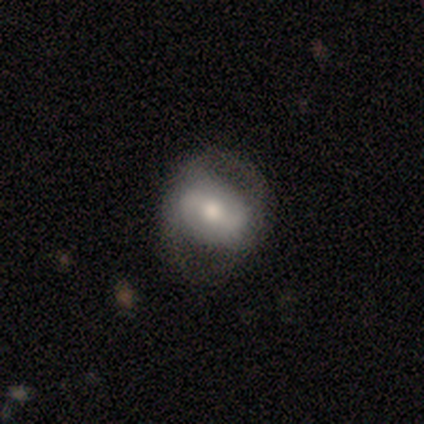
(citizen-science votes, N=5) smooth-or-featured: smooth: 80% | featured or disk: 20% | star or artifact: 0%
  how-rounded: round: 50% (tied) | in between: 50% (tied) | cigar-shaped: 0%
  merging: none: 80% | major disturbance: 20% | minor disturbance: 0% | merger: 0%